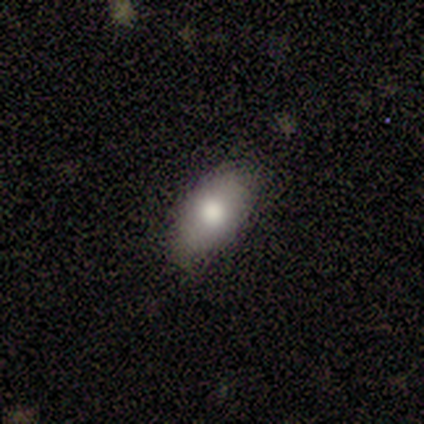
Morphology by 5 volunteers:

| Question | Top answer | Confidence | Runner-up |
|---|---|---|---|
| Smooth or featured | smooth | 100% | — |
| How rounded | in between | 100% | — |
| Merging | none | 100% | — |